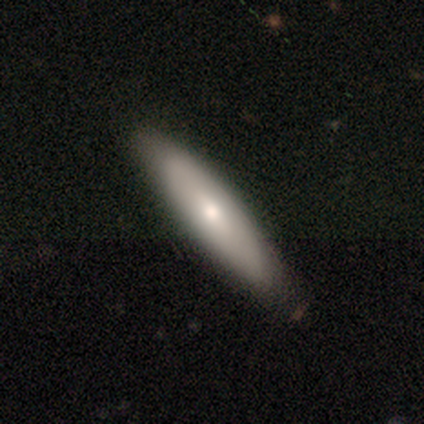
A smooth galaxy with no disk features (60%) that is cigar-shaped (67%). Merging: none (80%).